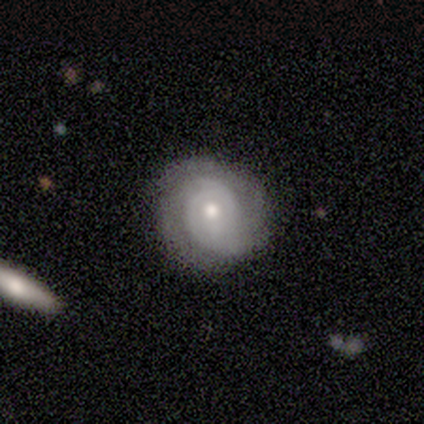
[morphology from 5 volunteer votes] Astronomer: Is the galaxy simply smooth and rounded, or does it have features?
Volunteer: featured or disk — 80%.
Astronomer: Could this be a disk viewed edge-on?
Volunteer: no — 100%.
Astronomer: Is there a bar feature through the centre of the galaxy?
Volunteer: no — 75%.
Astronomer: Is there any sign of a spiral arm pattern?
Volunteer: yes — 75%.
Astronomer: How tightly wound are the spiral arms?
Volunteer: medium — 67%.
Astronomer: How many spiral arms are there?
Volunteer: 2 — 33%, tied with 3 and can't tell at 33%.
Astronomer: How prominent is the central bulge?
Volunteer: moderate — 75%.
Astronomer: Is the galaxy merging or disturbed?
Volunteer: none — 60% (runner-up: minor disturbance, 40%).